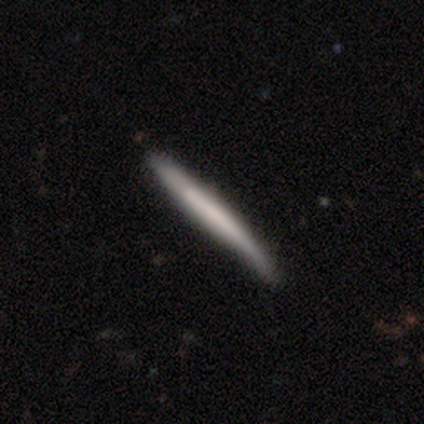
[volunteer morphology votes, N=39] featured or disk 51%, smooth 49%, star or artifact 0%. Down the decision tree: edge-on disk — yes (90%); edge-on bulge — none (83%); merging — none (59%).